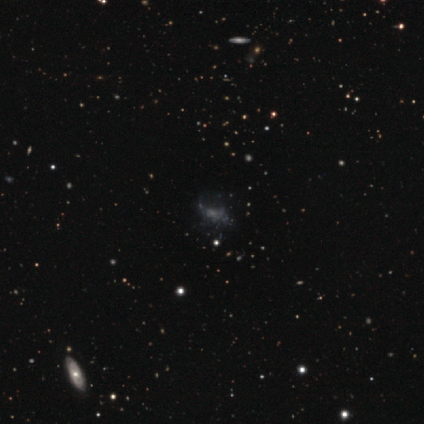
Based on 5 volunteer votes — Morphology: type=featured or disk (40%, tied with star or artifact); edge-on=no (100%); bar=weak (50%, tied with no); spiral arms=yes (50%, tied with no); winding=medium (100%); arm count=1 (100%); bulge=small (100%); merging=none (33%, tied with minor disturbance and major disturbance).